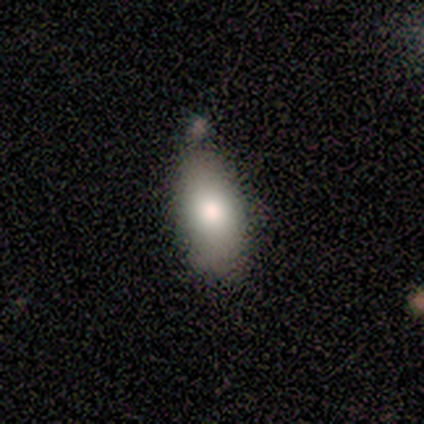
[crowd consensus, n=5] This is likely a smooth galaxy (60%). How rounded: clearly in between (100%). Merging: clearly none (100%).